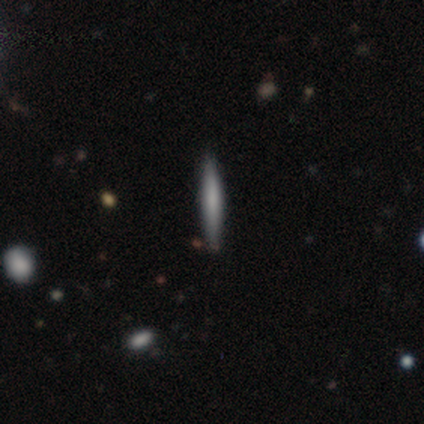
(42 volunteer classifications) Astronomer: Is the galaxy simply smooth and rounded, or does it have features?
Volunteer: smooth — 64%.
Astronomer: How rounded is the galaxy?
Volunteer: cigar-shaped — 100%.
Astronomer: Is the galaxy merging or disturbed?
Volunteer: none — 88%.